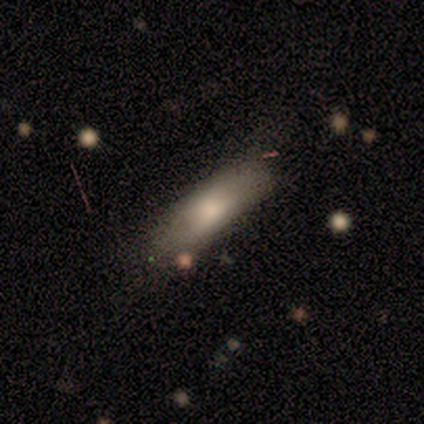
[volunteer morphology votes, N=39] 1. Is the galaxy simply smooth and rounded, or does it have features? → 77% smooth, 18% featured or disk, 5% star or artifact.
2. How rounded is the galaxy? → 80% in between, 20% cigar-shaped, 0% round.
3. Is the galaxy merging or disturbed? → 51% none, 14% minor disturbance, 11% merger, 5% major disturbance.